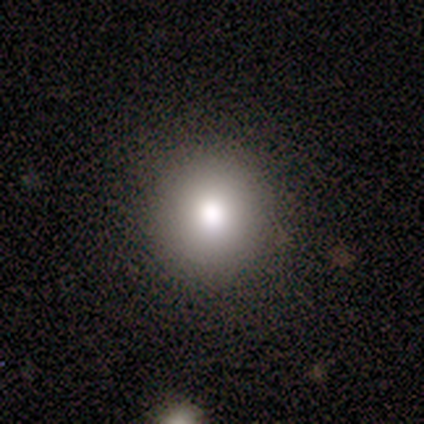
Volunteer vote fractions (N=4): Smooth or featured? 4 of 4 (100%) said smooth. How rounded? 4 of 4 (100%) said round. Merging? 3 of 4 (75%) said none.